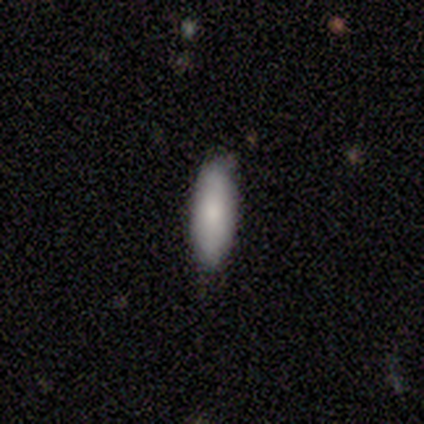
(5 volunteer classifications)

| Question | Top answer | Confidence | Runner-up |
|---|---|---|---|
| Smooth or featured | smooth | 100% | — |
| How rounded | in between | 60% | cigar-shaped (40%) |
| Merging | none | 100% | — |